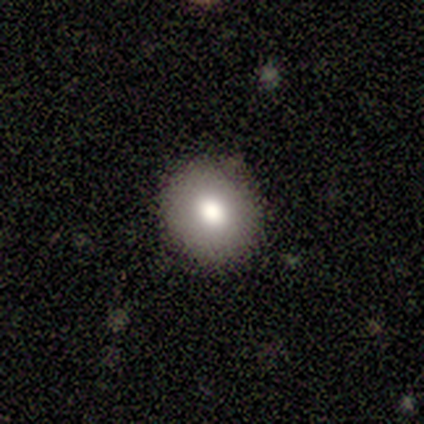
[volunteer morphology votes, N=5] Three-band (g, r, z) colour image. It shows a smooth galaxy with no disk features (80%) that is round (75%). Merging: none (100%).